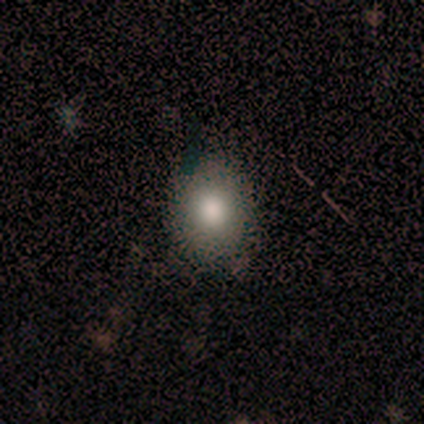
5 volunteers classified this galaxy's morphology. Smooth or featured: smooth — 100%
How rounded: round — 60% (in between — 40%)
Merging: none — 100%